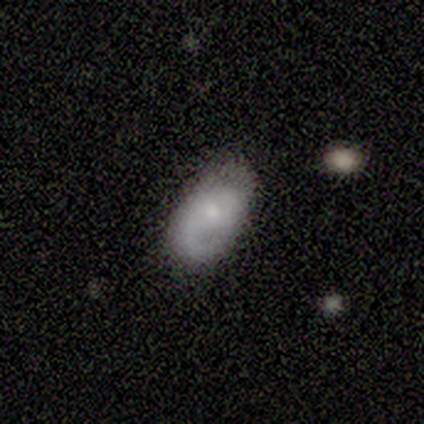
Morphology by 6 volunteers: A featured or disk galaxy (67%) with no bar (75%), 2 (75%) medium (75%) spiral arms (100%) and a moderate central bulge (50%). Merging: none (100%).